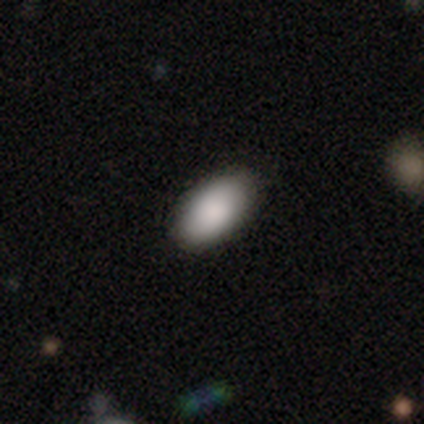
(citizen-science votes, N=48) Morphology: type=smooth (88%); roundness=in between (93%); merging=none (89%).